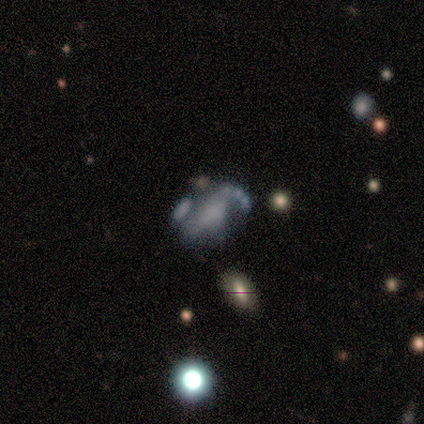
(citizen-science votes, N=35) A featured or disk galaxy (69%) with no bar (71%), no spiral arms (54%) and no central bulge (75%). Merging: major disturbance (31%).